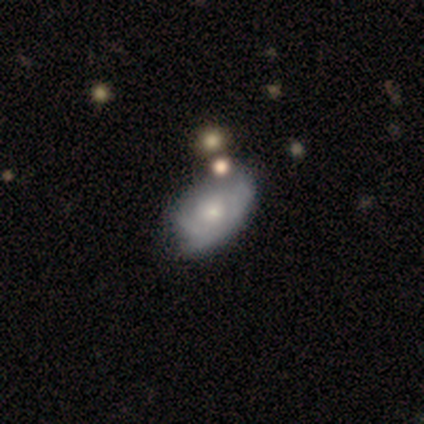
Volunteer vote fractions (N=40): smooth_or_featured: featured or disk (p=0.60) [alt: smooth p=0.35]
disk_edge_on: no (p=1.00)
bar: no (p=0.96) [alt: weak p=0.04]
has_spiral_arms: yes (p=0.54) [alt: no p=0.46]
spiral_winding: medium (p=0.54) [alt: tight p=0.46]
spiral_arm_count: can't tell (p=0.54) [alt: 2 p=0.31]
bulge_size: small (p=0.71) [alt: moderate p=0.12]
merging: minor disturbance (p=0.32) [alt: none p=0.29]